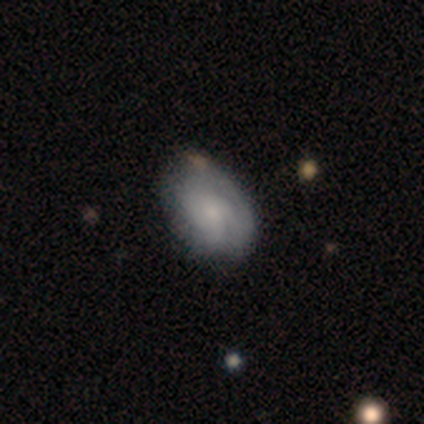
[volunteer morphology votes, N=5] A featured or disk galaxy (60%) with no bar (67%), medium (67%) spiral arms (100%) and a small central bulge (67%). Merging: none (50%).